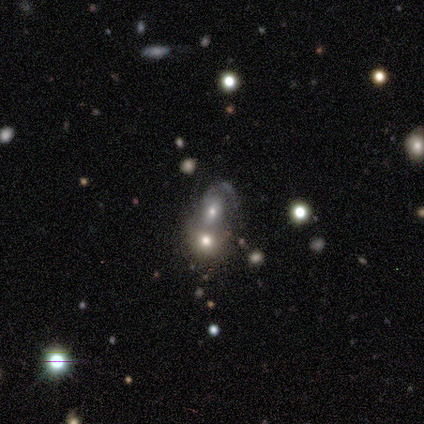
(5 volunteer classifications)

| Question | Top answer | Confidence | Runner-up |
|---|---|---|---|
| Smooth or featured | smooth | 60% | featured or disk (20%) |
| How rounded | in between | 67% | round (33%) |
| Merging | merger | 75% | none (25%) |